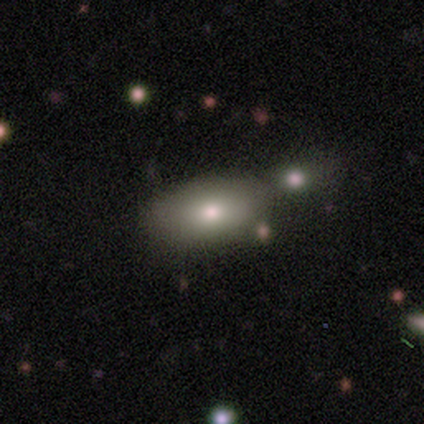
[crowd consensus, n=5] smooth 60%, featured or disk 40%, star or artifact 0%. Down the decision tree: how rounded — in between (67%); merging — none (80%).